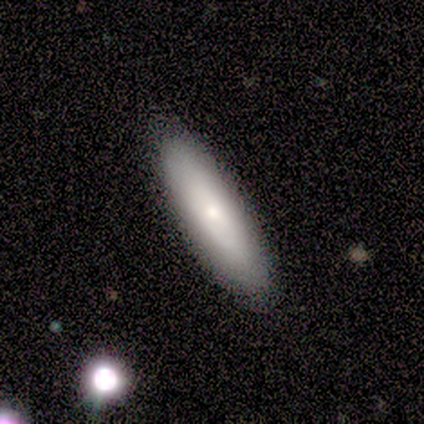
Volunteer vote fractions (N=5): This is likely a featured or disk galaxy (60%). It is likely viewed edge-on (67%). Edge-on bulge: possibly boxy (50%, tied with rounded). Merging: clearly none (80%).